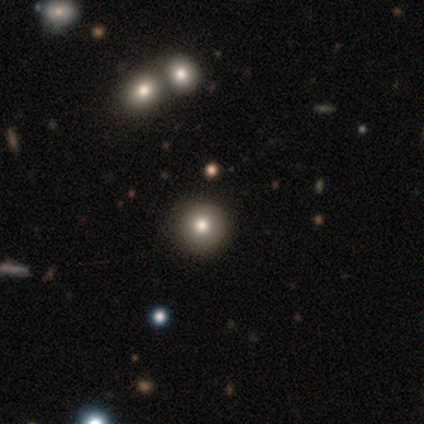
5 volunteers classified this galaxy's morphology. Smooth or featured? smooth (80%)
How rounded? round (100%)
Merging? none (100%)